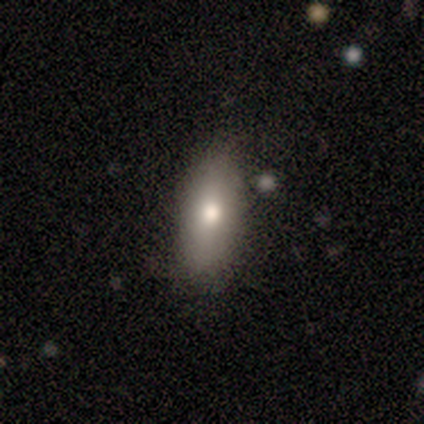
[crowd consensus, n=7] smooth 86%, featured or disk 14%, star or artifact 0%. Down the decision tree: how rounded — in between (67%); merging — none (71%).